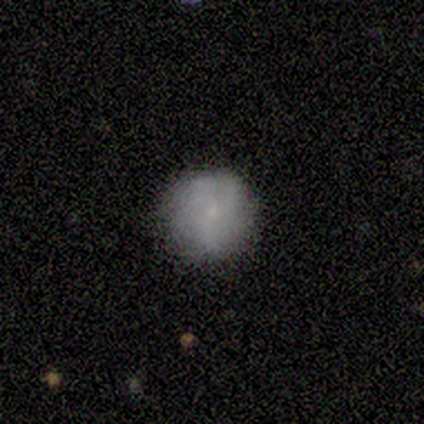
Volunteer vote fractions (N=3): A featured or disk galaxy (67%) with no bar (100%), tight (100%) spiral arms (100%) and a small central bulge (100%). Merging: none (100%).